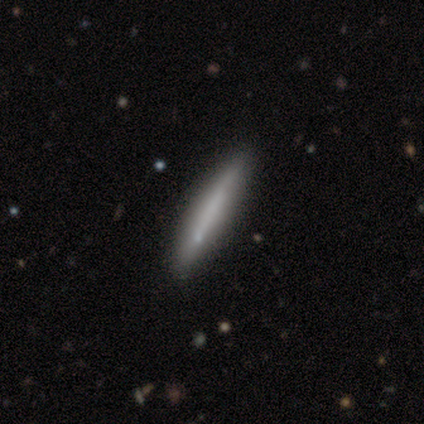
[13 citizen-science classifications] Smooth or featured: smooth — 62% (featured or disk — 31%)
How rounded: cigar-shaped — 100%
Merging: none — 92% (minor disturbance — 8%)